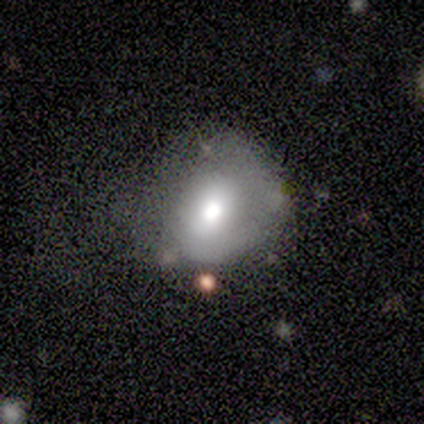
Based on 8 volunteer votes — Overall: smooth (62%; featured or disk 38%). How rounded: round (100%). Merging: none (62%; minor disturbance 25%).